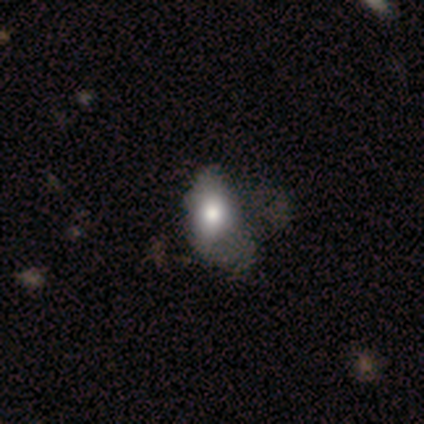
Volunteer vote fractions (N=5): A smooth galaxy with no disk features (40%, tied with featured or disk) that is in between round and cigar-shaped (100%). Merging: minor disturbance (75%).